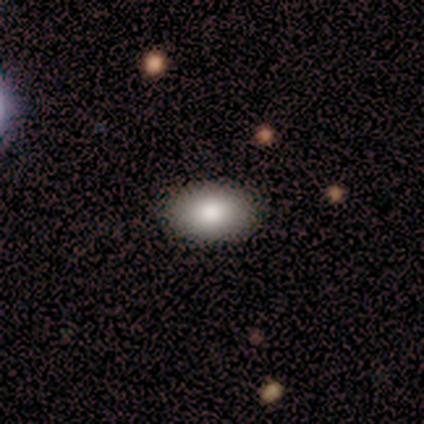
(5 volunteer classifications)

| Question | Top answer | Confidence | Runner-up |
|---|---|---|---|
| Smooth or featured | smooth | 100% | — |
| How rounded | in between | 80% | round (20%) |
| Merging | none | 80% | minor disturbance (20%) |